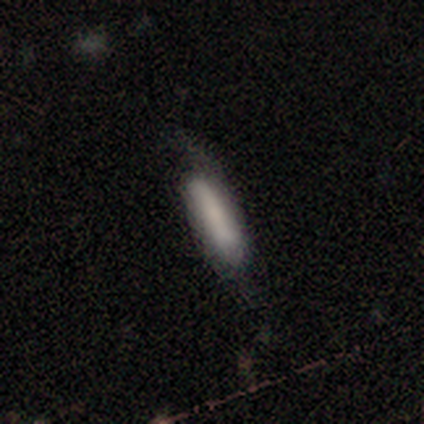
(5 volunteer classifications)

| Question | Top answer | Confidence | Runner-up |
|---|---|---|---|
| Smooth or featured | smooth | 80% | featured or disk (20%) |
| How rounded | cigar-shaped | 75% | in between (25%) |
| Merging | minor disturbance | 60% | none (40%) |